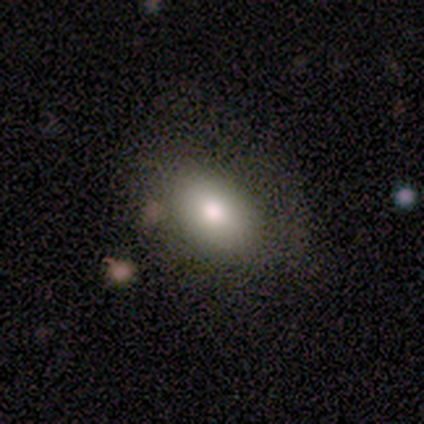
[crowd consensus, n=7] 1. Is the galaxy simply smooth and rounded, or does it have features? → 100% smooth, 0% featured or disk, 0% star or artifact.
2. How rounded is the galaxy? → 71% in between, 29% round, 0% cigar-shaped.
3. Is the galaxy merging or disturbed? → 86% none, 14% major disturbance, 0% minor disturbance, 0% merger.